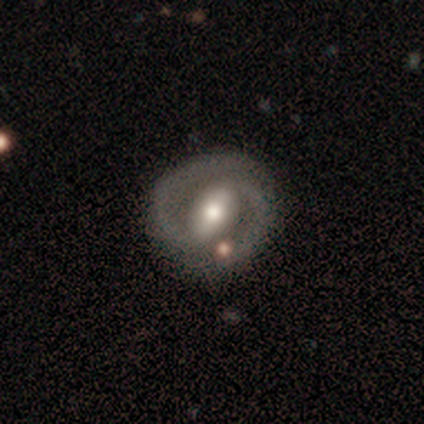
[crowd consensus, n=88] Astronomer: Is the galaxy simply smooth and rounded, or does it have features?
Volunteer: featured or disk — 85%.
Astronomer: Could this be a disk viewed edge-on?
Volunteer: no — 97%.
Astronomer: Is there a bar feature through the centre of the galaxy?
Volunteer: strong — 55% (runner-up: weak, 33%).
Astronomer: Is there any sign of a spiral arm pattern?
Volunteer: yes — 96%.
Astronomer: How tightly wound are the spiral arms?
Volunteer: tight — 50% (runner-up: medium, 44%).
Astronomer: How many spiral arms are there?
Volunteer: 2 — 97%.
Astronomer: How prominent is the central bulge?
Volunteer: moderate — 68%.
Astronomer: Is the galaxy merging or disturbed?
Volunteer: none — 88%.